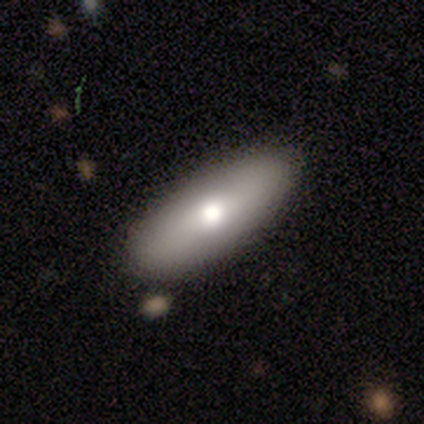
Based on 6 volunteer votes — Overall: smooth (100%). How rounded: in between (100%). Merging: none (100%).